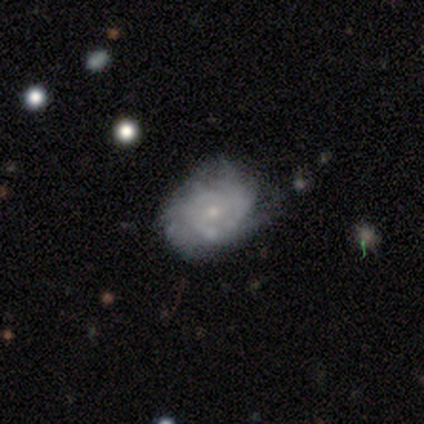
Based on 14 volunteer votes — A featured or disk galaxy (100%) with no bar (79%), more than 4 (30%, tied with can't tell) tight (60%) spiral arms (71%) and a small central bulge (64%). Merging: none (71%).